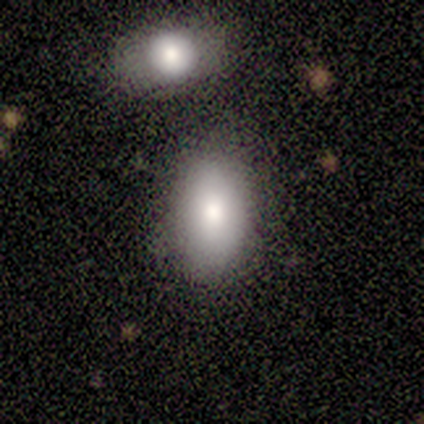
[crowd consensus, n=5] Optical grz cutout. It shows a smooth galaxy with no disk features (80%) that is in between round and cigar-shaped (75%). Merging: none (75%).